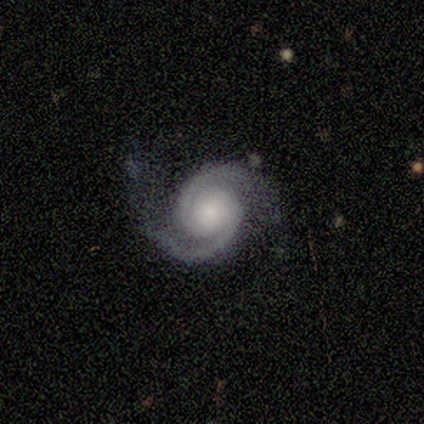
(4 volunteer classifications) Q: Smooth or featured?
A: featured or disk (100%)
Q: Edge-on disk?
A: no (100%)
Q: Bar?
A: no (50%); runner-up: strong (25%)
Q: Spiral arms?
A: yes (100%)
Q: Spiral winding?
A: tight (75%); runner-up: medium (25%)
Q: Spiral arm count?
A: 2 (100%)
Q: Bulge size?
A: small (75%); runner-up: large (25%)
Q: Merging?
A: none (50%); tied with: minor disturbance (50%)